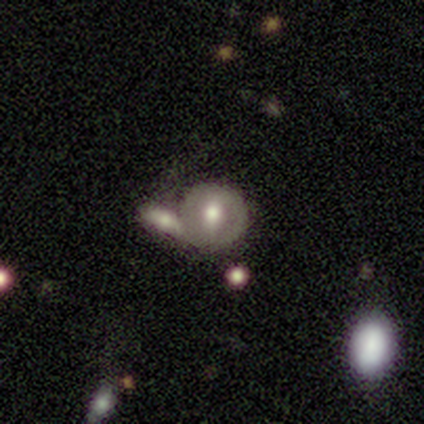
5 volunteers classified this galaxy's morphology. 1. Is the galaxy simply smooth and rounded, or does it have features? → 60% smooth, 40% featured or disk, 0% star or artifact.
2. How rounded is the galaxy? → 100% round, 0% in between, 0% cigar-shaped.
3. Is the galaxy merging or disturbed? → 60% merger, 40% none, 0% minor disturbance, 0% major disturbance.